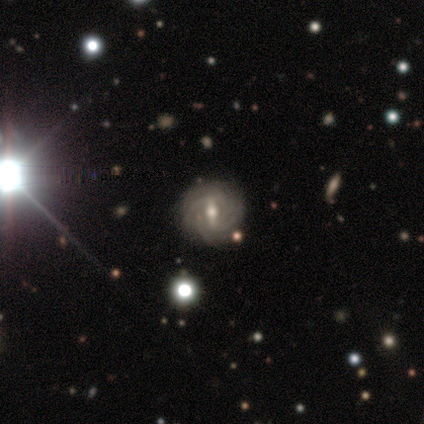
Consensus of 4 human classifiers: Smooth or featured?
  - featured or disk: 75% *
  - smooth: 25%
  - star or artifact: 0%
Edge-on disk?
  - no: 100% *
  - yes: 0%
Bar?
  - strong: 67% *
  - no: 33%
  - weak: 0%
Spiral arms?
  - yes: 100% *
  - no: 0%
Spiral winding?
  - tight: 100% *
  - medium: 0%
  - loose: 0%
Spiral arm count?
  - 1: 33% * (tied)
  - 3: 33% * (tied)
  - 4: 33% * (tied)
  - 2: 0%
  - more than 4: 0%
  - can't tell: 0%
Bulge size?
  - moderate: 67% *
  - small: 33%
  - dominant: 0%
  - large: 0%
  - none: 0%
Merging?
  - none: 75% *
  - minor disturbance: 25%
  - major disturbance: 0%
  - merger: 0%